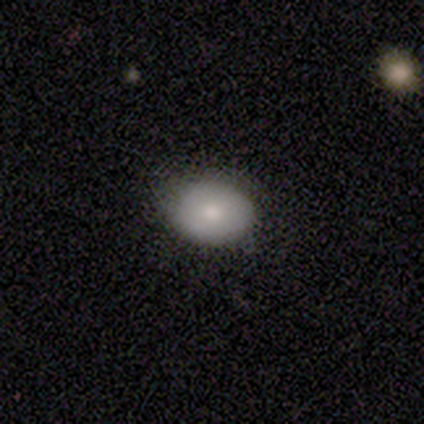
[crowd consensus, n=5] smooth 100%, featured or disk 0%, star or artifact 0%. Down the decision tree: how rounded — in between (60%); merging — none (80%).